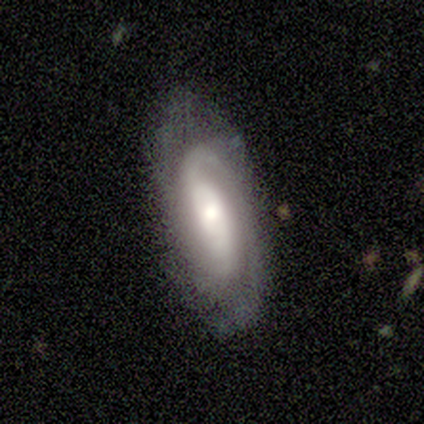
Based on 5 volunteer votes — smooth_or_featured: featured or disk (p=1.00)
disk_edge_on: no (p=1.00)
bar: no (p=0.80) [alt: weak p=0.20]
has_spiral_arms: yes (p=1.00)
spiral_winding: tight (p=1.00)
spiral_arm_count: 2 (p=0.80) [alt: 3 p=0.20]
bulge_size: large (p=0.40) [tied with: small p=0.40]
merging: none (p=1.00)